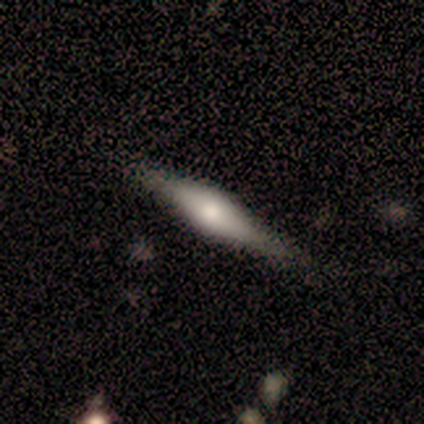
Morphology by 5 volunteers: featured or disk 80%, smooth 20%, star or artifact 0%. Down the decision tree: edge-on disk — yes (100%); edge-on bulge — rounded (75%); merging — none (80%).